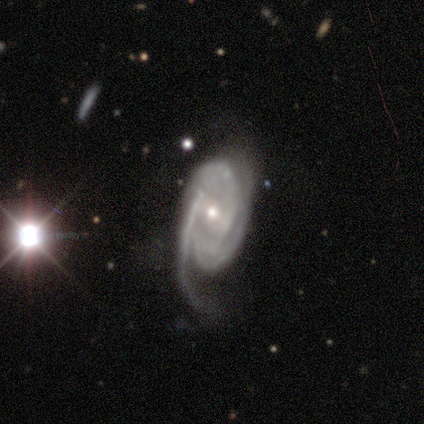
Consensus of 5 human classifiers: Smooth or featured?
  - featured or disk: 80% *
  - smooth: 20%
  - star or artifact: 0%
Edge-on disk?
  - no: 75% *
  - yes: 25%
Bar?
  - strong: 33% * (tied)
  - weak: 33% * (tied)
  - no: 33% * (tied)
Spiral arms?
  - yes: 100% *
  - no: 0%
Spiral winding?
  - tight: 67% *
  - medium: 33%
  - loose: 0%
Spiral arm count?
  - 3: 100% *
  - 1: 0%
  - 2: 0%
  - 4: 0%
  - more than 4: 0%
  - can't tell: 0%
Bulge size?
  - small: 67% *
  - moderate: 33%
  - dominant: 0%
  - large: 0%
  - none: 0%
Merging?
  - major disturbance: 60% *
  - none: 20%
  - minor disturbance: 20%
  - merger: 0%